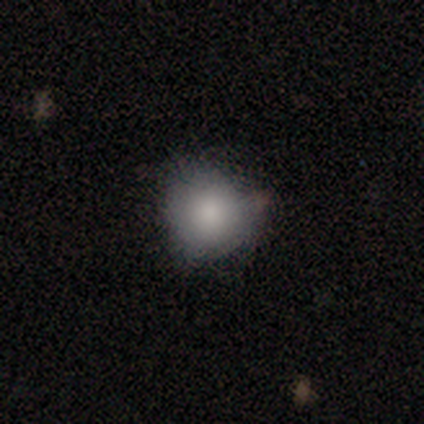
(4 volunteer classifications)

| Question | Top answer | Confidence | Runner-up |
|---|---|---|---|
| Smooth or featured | smooth | 100% | — |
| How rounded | round | 75% | in between (25%) |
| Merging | none | 75% | minor disturbance (25%) |